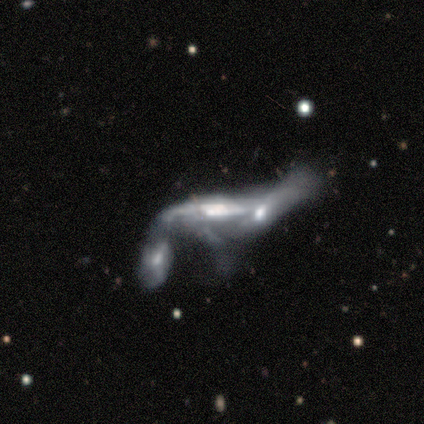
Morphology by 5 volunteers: Overall: featured or disk (80%). Edge-on disk: no (75%). Bar: weak (67%; no 33%). Spiral arms: yes (67%; no 33%). Spiral arm count: 1 (50%, tied with 2). Spiral winding: loose (100%). Bulge size: moderate (67%; small 33%). Merging: merger (60%; none 20%).